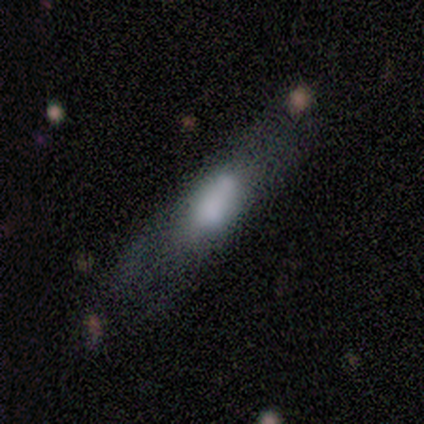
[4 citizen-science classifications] smooth 50% (tied), featured or disk 50% (tied), star or artifact 0%. Down the decision tree: how rounded — in between (50%, tied with cigar-shaped); merging — none (75%).